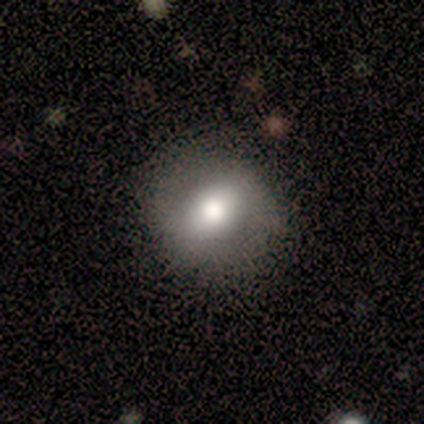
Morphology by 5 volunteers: Volunteers were most divided on "bulge size" (3-way tie): dominant: 33%, moderate: 33%, small: 33%, large: 0%, none: 0%. More confident: edge-on disk — no (100%); bar — weak (100%); spiral arms — no (100%); merging — none (80%); smooth or featured — featured or disk (60%).